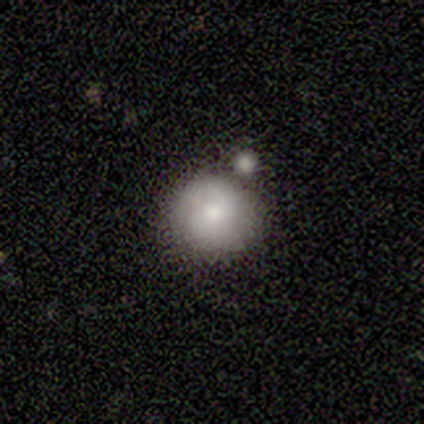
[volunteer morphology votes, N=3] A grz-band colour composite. It shows a smooth galaxy with no disk features (67%) that is round (50%, tied with in between). Merging: merger (100%).